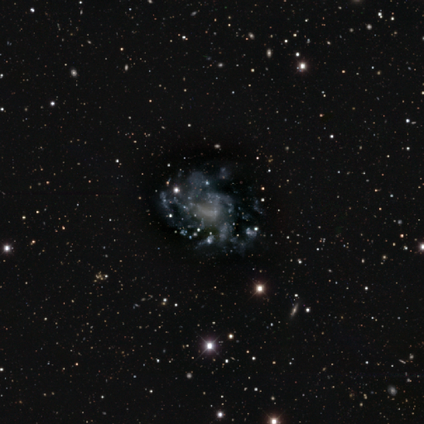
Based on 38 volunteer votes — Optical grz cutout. It shows a featured or disk galaxy (89%) with no bar (79%), no spiral arms (65%) and no central bulge (68%). Merging: none (32%).